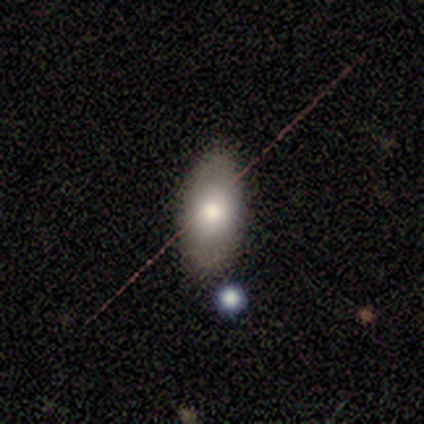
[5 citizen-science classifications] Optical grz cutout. It shows a smooth galaxy with no disk features (60%) that is in between round and cigar-shaped (100%). Merging: none (80%).